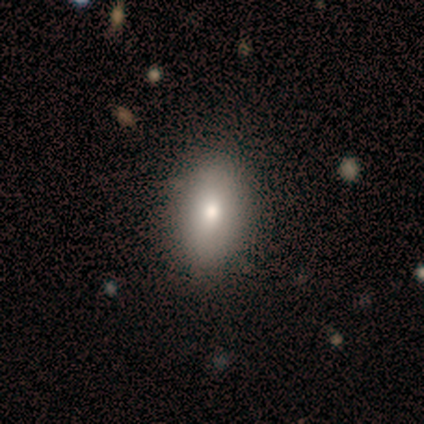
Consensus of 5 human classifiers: Morphology: type=smooth (100%); roundness=in between (80%); merging=none (60%).